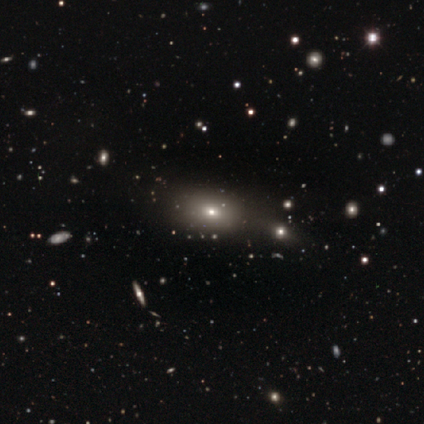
A smooth galaxy with no disk features (64%) that is in between round and cigar-shaped (68%). Merging: none (58%).